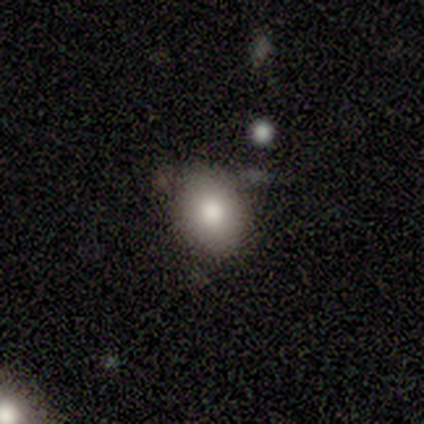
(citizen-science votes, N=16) Smooth or featured?
  - smooth: 69% *
  - star or artifact: 25%
  - featured or disk: 6%
How rounded?
  - in between: 55% *
  - round: 45%
  - cigar-shaped: 0%
Merging?
  - none: 92% *
  - minor disturbance: 8%
  - major disturbance: 0%
  - merger: 0%